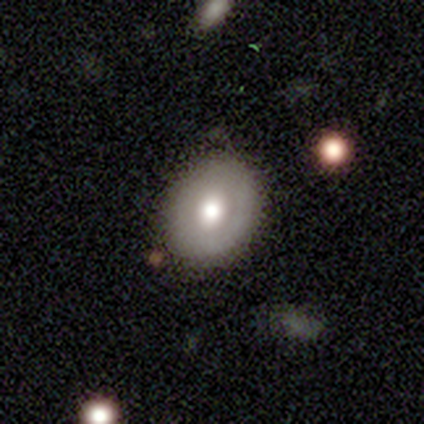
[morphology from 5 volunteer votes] smooth_or_featured: smooth (p=0.60) [alt: featured or disk p=0.40]
how_rounded: in between (p=0.67) [alt: round p=0.33]
merging: none (p=1.00)